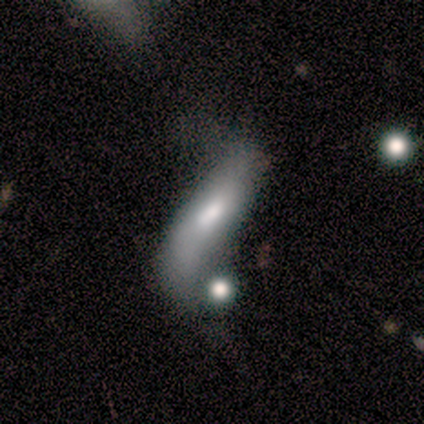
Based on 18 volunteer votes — Overall: smooth (56%; featured or disk 39%). How rounded: cigar-shaped (70%; in between 30%). Merging: none (29%, tied with merger).